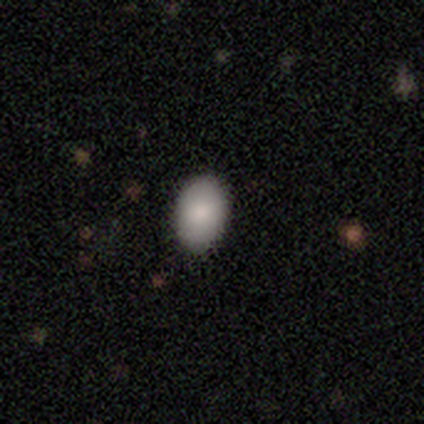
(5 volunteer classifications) A smooth galaxy with no disk features (80%) that is in between round and cigar-shaped (100%). Merging: none (100%).